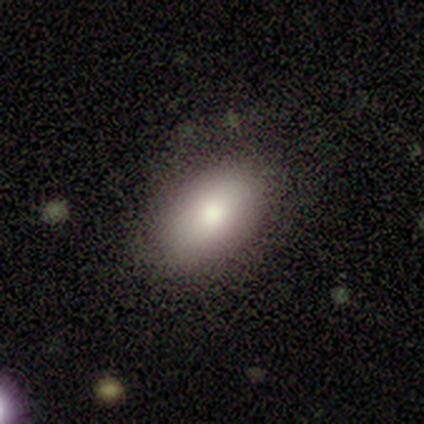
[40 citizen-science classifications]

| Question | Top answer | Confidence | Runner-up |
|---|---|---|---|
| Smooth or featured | smooth | 80% | featured or disk (12%) |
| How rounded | in between | 88% | round (9%) |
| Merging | none | 86% | minor disturbance (11%) |